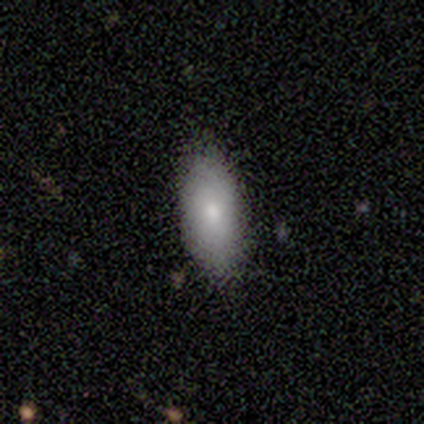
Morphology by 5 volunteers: Q: Smooth or featured?
A: smooth (100%)
Q: How rounded?
A: in between (80%); runner-up: cigar-shaped (20%)
Q: Merging?
A: none (80%); runner-up: minor disturbance (20%)